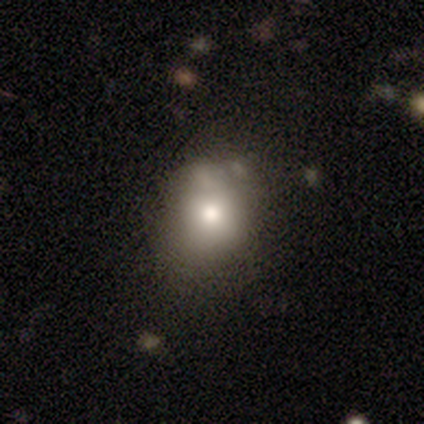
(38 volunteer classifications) Smooth or featured: smooth — 74% (featured or disk — 16%)
How rounded: round — 71% (in between — 25%)
Merging: none — 62% (minor disturbance — 24%)